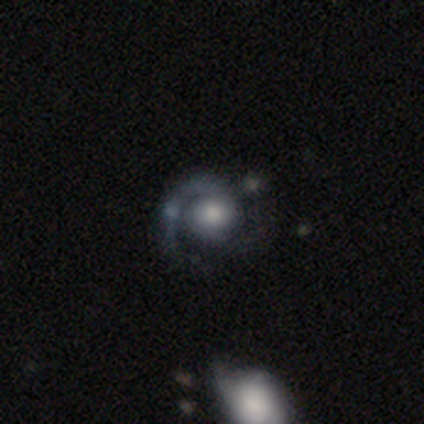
Smooth or featured? featured or disk (88%)
Edge-on disk? no (100%)
Bar? no (79%)
Spiral arms? yes (93%)
Spiral winding? medium (62%)
Spiral arm count? 1 (69%)
Bulge size? large (43%, tied with moderate)
Merging? none (56%)